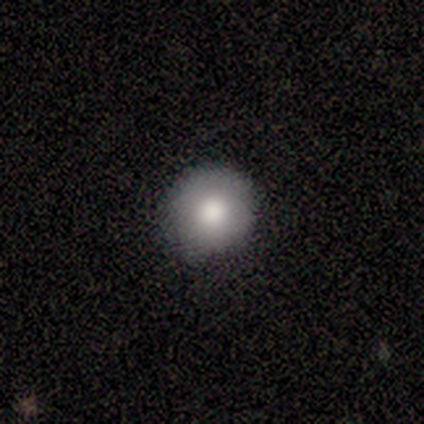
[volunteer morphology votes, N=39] smooth-or-featured: smooth: 79% | featured or disk: 15% | star or artifact: 5%
  how-rounded: round: 90% | in between: 10% | cigar-shaped: 0%
  merging: none: 84% | minor disturbance: 16% | major disturbance: 0% | merger: 0%